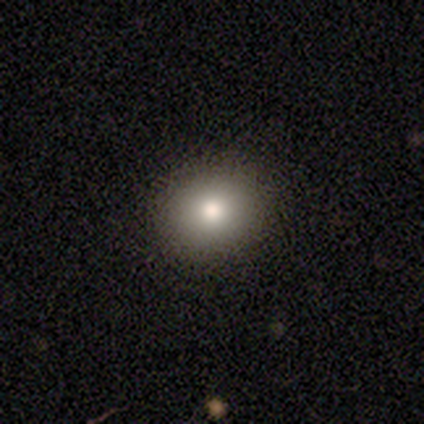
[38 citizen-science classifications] A smooth galaxy with no disk features (79%) that is round (63%). Merging: none (100%).